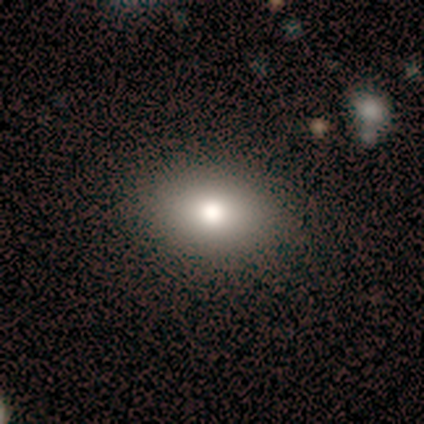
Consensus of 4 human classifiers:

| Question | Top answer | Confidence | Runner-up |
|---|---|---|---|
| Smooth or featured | smooth | 100% | — |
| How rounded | in between | 100% | — |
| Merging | none | 100% | — |